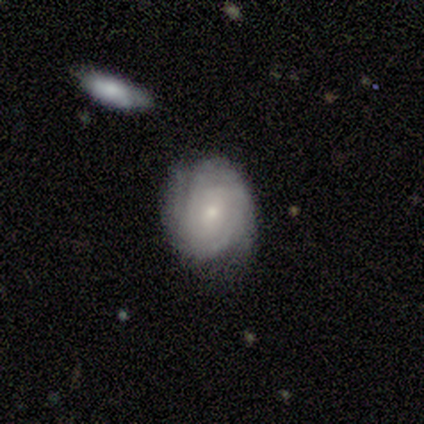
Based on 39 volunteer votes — A featured or disk galaxy (69%) with no bar (88%), tight (74%) spiral arms (96%) and a small central bulge (71%). Merging: none (78%).